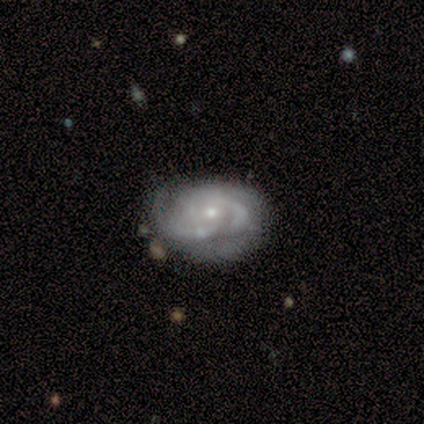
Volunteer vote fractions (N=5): Overall: featured or disk (100%). Edge-on disk: no (100%). Bar: no (60%; weak 40%). Spiral arms: yes (100%). Spiral arm count: 3 (40%, tied with can't tell). Spiral winding: tight (60%; medium 40%). Bulge size: small (100%). Merging: none (80%).